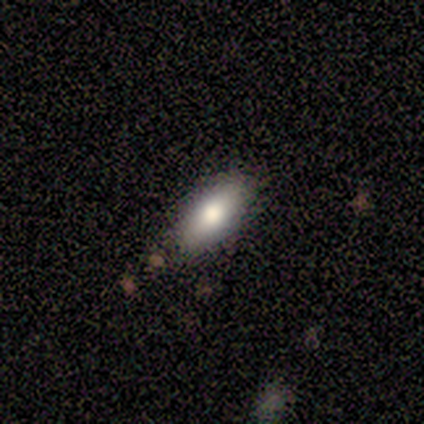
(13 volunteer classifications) A smooth galaxy with no disk features (77%) that is in between round and cigar-shaped (80%).

Vote fractions:
- Smooth or featured? smooth: 77% / featured or disk: 23% / star or artifact: 0%
- How rounded? in between: 80% / cigar-shaped: 20% / round: 0%
- Merging? none: 69% / minor disturbance: 31% / major disturbance: 0% / merger: 0%